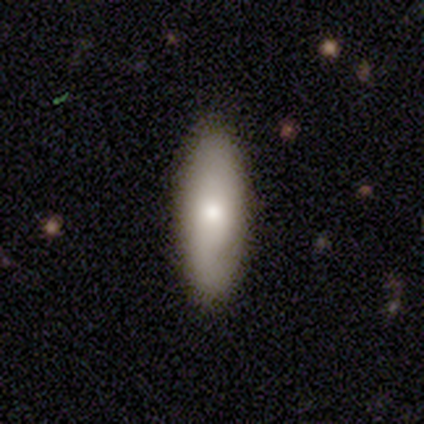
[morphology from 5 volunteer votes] type=smooth (80%); roundness=in between (50%, tied with cigar-shaped); merging=none (100%).